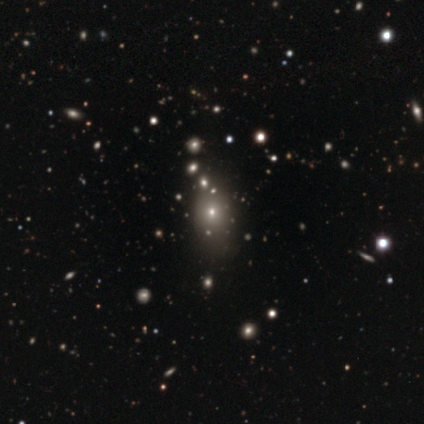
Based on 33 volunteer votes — Smooth or featured?
  - smooth: 58% *
  - star or artifact: 39%
  - featured or disk: 3%
How rounded?
  - in between: 68% *
  - round: 32%
  - cigar-shaped: 0%
Merging?
  - none: 60% *
  - major disturbance: 25%
  - minor disturbance: 10%
  - merger: 5%